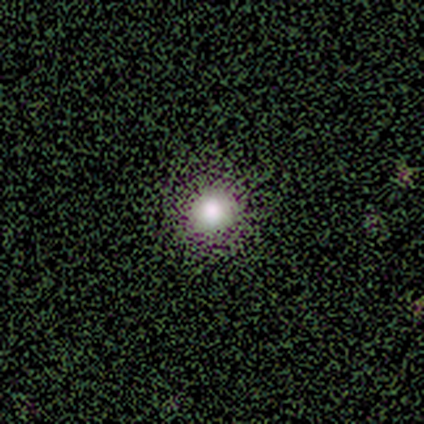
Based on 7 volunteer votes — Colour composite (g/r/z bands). It shows a smooth galaxy with no disk features (71%) that is round (100%). Merging: none (100%).